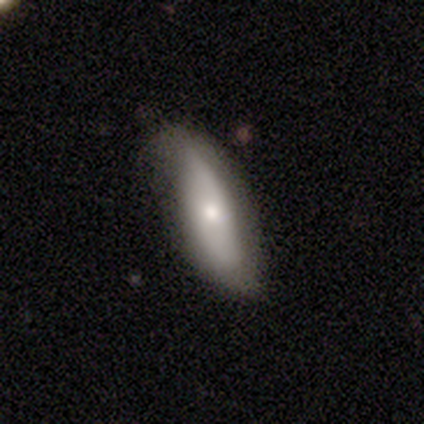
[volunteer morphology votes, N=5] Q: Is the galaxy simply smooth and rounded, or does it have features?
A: smooth — 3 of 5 (60%).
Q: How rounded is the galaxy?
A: in between — 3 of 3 (100%).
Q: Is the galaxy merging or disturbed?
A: none — 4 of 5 (80%).